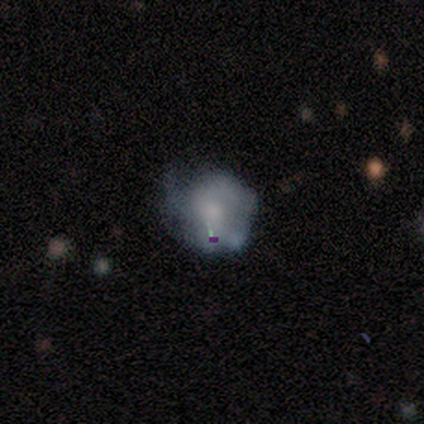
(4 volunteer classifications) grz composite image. It shows a featured or disk galaxy (75%) with no bar (100%), 2 (33%, tied with 3 and can't tell) medium (67%) spiral arms (100%) and a moderate central bulge (33%, tied with small and none). Merging: none (75%).